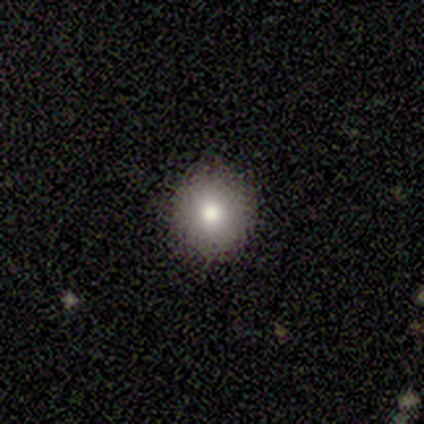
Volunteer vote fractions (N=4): Smooth or featured? smooth (100%)
How rounded? round (75%)
Merging? none (100%)